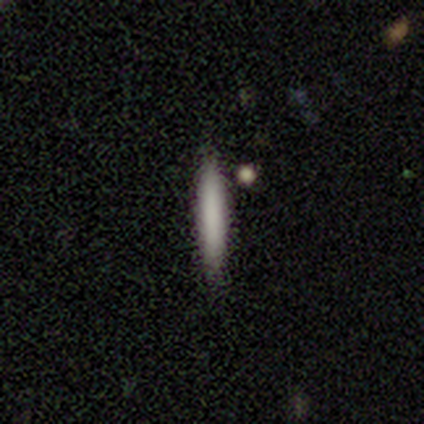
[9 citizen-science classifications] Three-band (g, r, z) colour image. It shows a smooth galaxy with no disk features (89%) that is cigar-shaped (88%). Merging: none (100%).